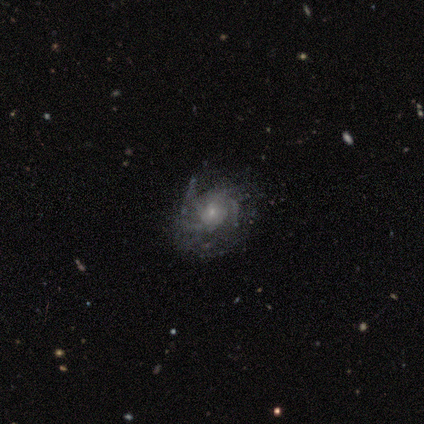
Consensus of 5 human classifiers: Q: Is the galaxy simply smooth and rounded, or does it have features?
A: featured or disk — 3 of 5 (60%).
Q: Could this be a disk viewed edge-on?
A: no — 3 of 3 (100%).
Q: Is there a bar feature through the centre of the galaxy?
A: no — 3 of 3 (100%).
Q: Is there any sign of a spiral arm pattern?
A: yes — 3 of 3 (100%).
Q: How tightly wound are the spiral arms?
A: medium — 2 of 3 (67%).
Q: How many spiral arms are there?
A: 2 — 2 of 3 (67%).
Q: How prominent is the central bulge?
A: small — 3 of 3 (100%).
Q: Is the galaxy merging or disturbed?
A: none — 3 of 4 (75%).